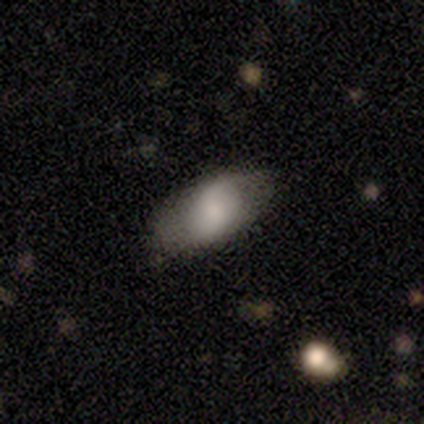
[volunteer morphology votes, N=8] A featured or disk galaxy (62%) with no bar (75%), 2 (100%) loose (67%) spiral arms (75%) and a moderate central bulge (50%). Merging: none (71%).